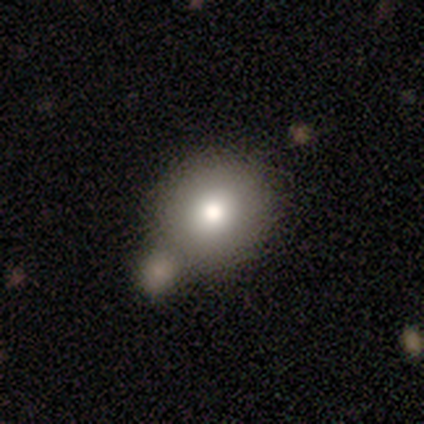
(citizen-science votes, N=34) smooth 74%, star or artifact 15%, featured or disk 12%. Down the decision tree: how rounded — round (88%); merging — merger (79%).